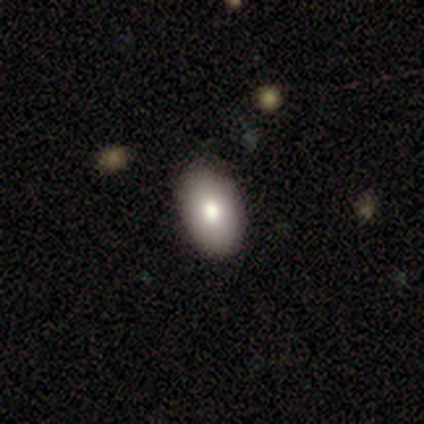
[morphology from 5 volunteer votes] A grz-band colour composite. It shows a smooth galaxy with no disk features (100%) that is in between round and cigar-shaped (100%). Merging: none (100%).